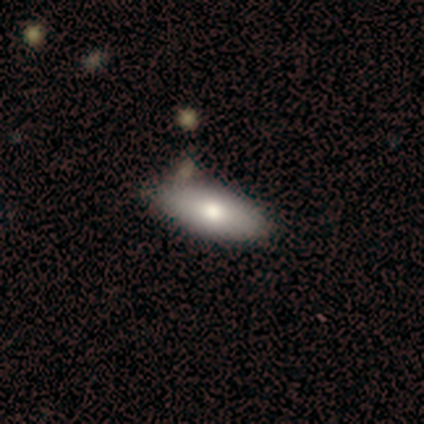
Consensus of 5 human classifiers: Q: Smooth or featured?
A: smooth (60%); runner-up: featured or disk (20%)
Q: How rounded?
A: in between (100%)
Q: Merging?
A: none (50%); runner-up: minor disturbance (25%)